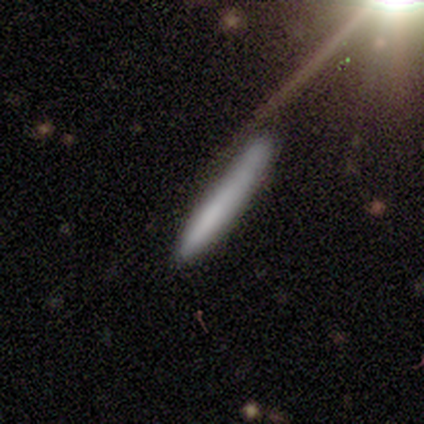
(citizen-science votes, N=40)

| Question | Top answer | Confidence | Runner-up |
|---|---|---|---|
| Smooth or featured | smooth | 65% | featured or disk (25%) |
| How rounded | cigar-shaped | 100% | — |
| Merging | none | 44% | minor disturbance (19%) |